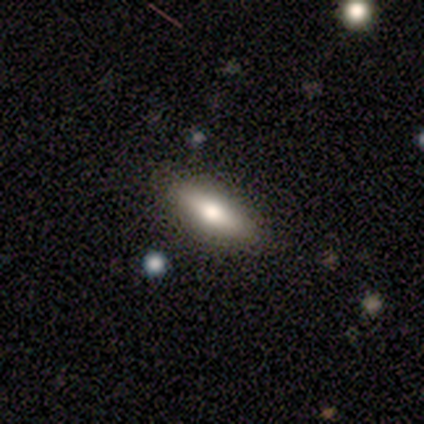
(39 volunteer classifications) smooth-or-featured: smooth: 59% | featured or disk: 41% | star or artifact: 0%
  how-rounded: in between: 57% | cigar-shaped: 43% | round: 0%
  merging: none: 56% | minor disturbance: 8% | merger: 5% | major disturbance: 0%